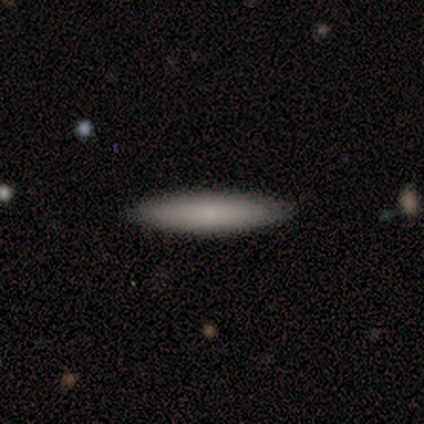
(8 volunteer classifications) smooth 75%, star or artifact 25%, featured or disk 0%. Down the decision tree: how rounded — cigar-shaped (100%); merging — none (83%).